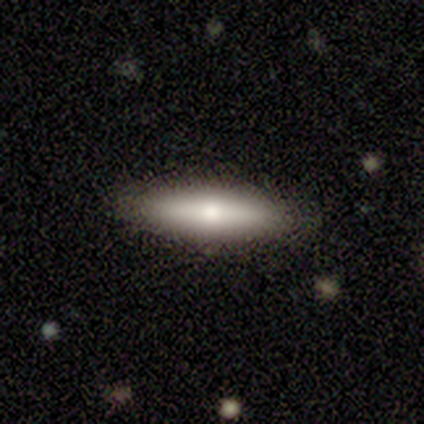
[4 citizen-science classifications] Smooth or featured: smooth — 75% (featured or disk — 25%)
How rounded: cigar-shaped — 67% (in between — 33%)
Merging: none — 75% (minor disturbance — 25%)